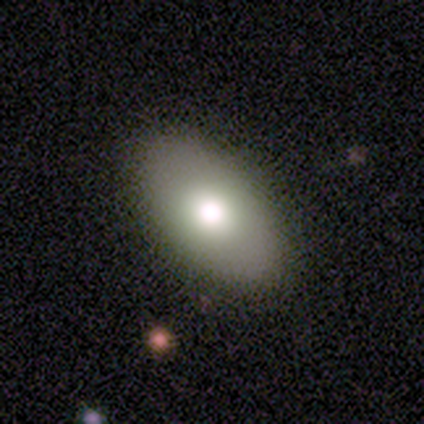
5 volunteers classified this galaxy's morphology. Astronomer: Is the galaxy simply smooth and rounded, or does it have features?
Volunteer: smooth — 60% (runner-up: featured or disk, 40%).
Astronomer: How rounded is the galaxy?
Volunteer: in between — 100%.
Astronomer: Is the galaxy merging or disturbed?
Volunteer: none — 100%.